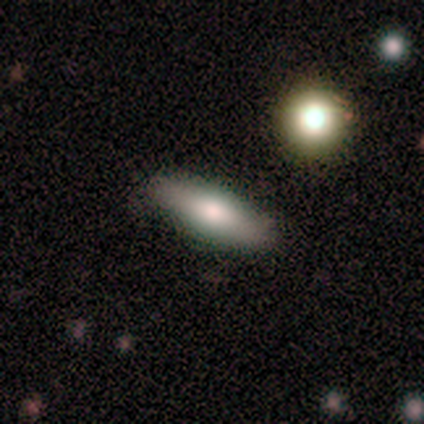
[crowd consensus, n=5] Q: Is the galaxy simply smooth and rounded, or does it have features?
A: smooth — 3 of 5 (60%).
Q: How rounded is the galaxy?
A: in between — 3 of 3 (100%).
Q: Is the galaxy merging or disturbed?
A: none — 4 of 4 (100%).